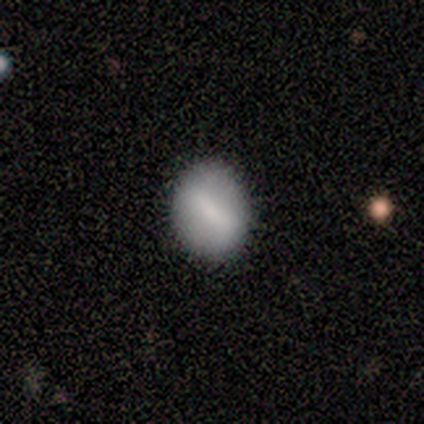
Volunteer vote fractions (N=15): smooth_or_featured: smooth (p=0.53) [alt: featured or disk p=0.40]
how_rounded: round (p=0.62) [alt: in between p=0.38]
merging: none (p=0.71) [alt: minor disturbance p=0.21]